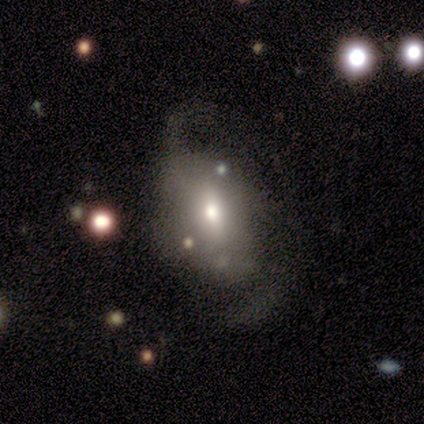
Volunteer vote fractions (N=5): featured or disk 60%, smooth 40%, star or artifact 0%. Down the decision tree: edge-on disk — no (100%); bar — strong (33%, tied with weak and no); spiral arms — yes (100%); spiral arm count — 2 (100%); spiral winding — tight (33%, tied with medium and loose); bulge size — moderate (67%); merging — none (60%).